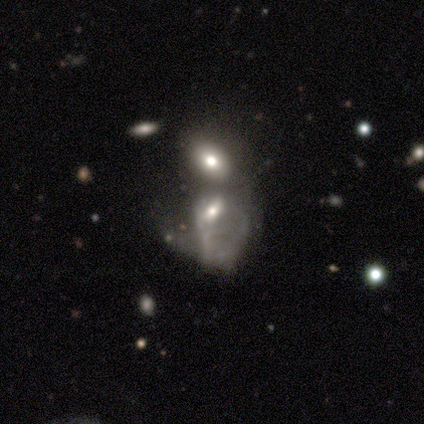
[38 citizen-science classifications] Smooth or featured? featured or disk (58%)
Edge-on disk? no (95%)
Bar? no (62%)
Spiral arms? no (71%)
Bulge size? moderate (43%)
Merging? merger (66%)